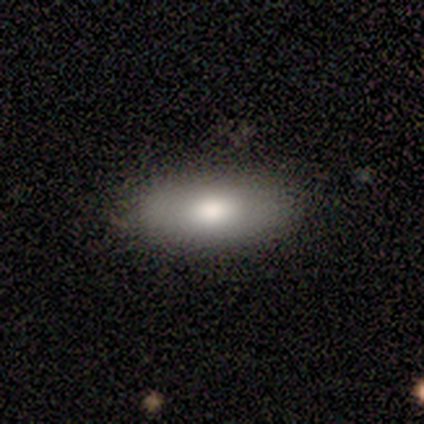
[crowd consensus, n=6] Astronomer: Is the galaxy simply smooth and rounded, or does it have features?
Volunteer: smooth — 67%.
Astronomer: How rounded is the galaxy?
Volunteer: in between — 75%.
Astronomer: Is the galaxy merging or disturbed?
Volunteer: none — 80%.